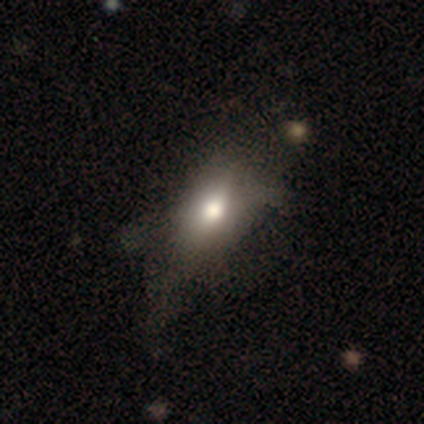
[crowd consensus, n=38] Q: Smooth or featured?
A: smooth (68%); runner-up: featured or disk (26%)
Q: How rounded?
A: in between (88%); runner-up: cigar-shaped (8%)
Q: Merging?
A: none (36%); runner-up: minor disturbance (14%)